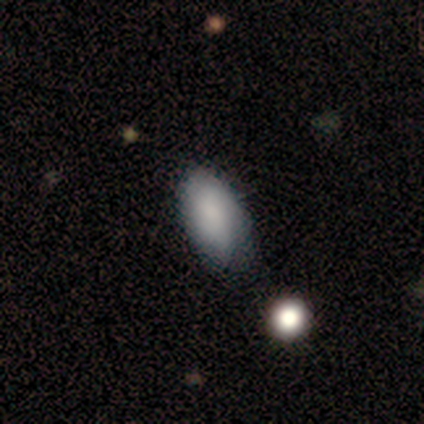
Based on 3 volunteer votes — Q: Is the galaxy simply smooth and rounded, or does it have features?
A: star or artifact — 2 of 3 (67%).